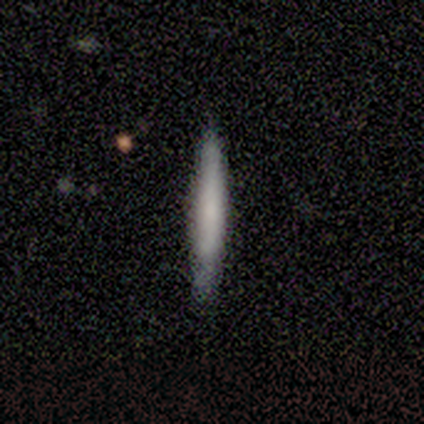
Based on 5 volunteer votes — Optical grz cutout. It shows a smooth galaxy with no disk features (100%) that is cigar-shaped (100%). Merging: none (60%).